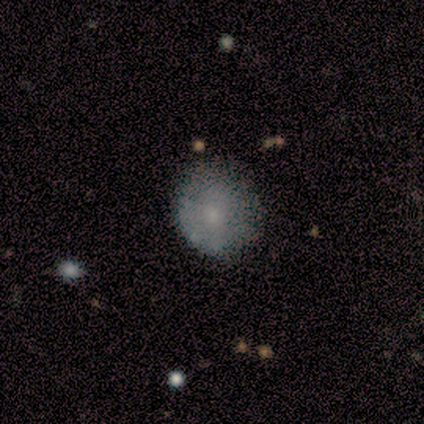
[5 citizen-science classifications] Smooth or featured: smooth — 80% (featured or disk — 20%)
How rounded: round — 75% (in between — 25%)
Merging: none — 60% (minor disturbance — 40%)